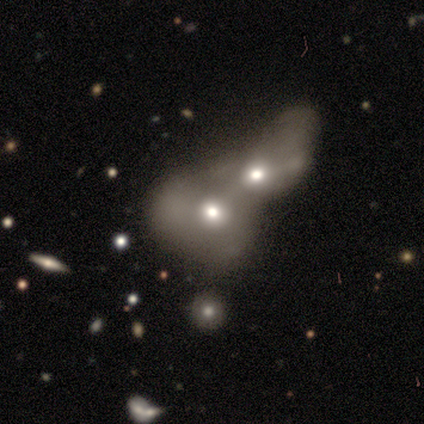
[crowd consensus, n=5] A featured or disk galaxy (60%) with no bar (100%), no spiral arms (100%) and a moderate central bulge (67%).

Vote fractions:
- Smooth or featured? featured or disk: 60% / smooth: 40% / star or artifact: 0%
- Edge-on disk? no: 100% / yes: 0%
- Bar? no: 100% / strong: 0% / weak: 0%
- Spiral arms? no: 100% / yes: 0%
- Bulge size? moderate: 67% / large: 33% / dominant: 0% / small: 0% / none: 0%
- Merging? merger: 100% / none: 0% / minor disturbance: 0% / major disturbance: 0%